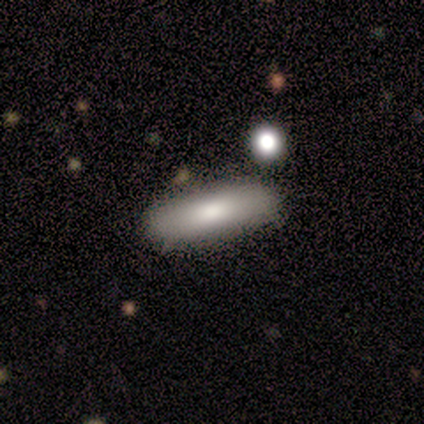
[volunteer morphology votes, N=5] type=smooth (60%); roundness=cigar-shaped (67%); merging=none (80%).